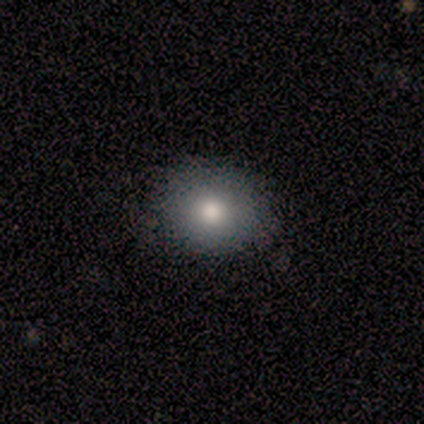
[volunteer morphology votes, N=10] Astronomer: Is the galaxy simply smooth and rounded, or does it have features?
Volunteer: smooth — 50%, tied with star or artifact at 50%.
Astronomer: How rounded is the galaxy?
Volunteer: round — 60% (runner-up: in between, 40%).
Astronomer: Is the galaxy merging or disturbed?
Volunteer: none — 80%.